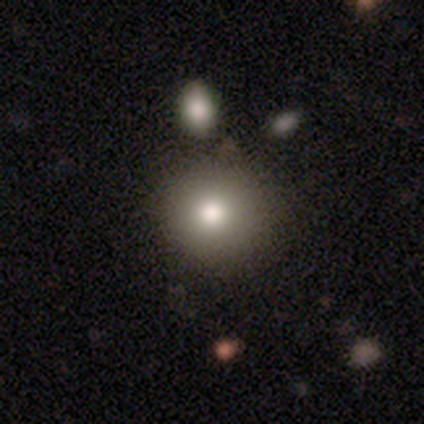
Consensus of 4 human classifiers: Overall: smooth (100%). How rounded: round (100%). Merging: none (75%).